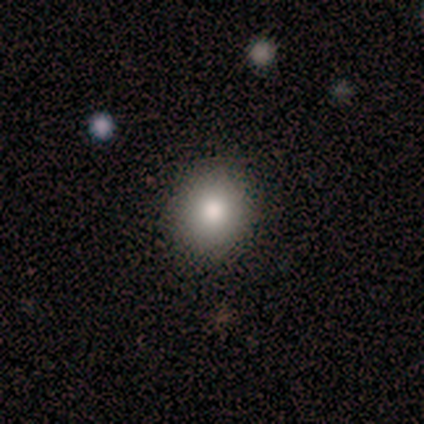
Morphology: type=smooth (100%); roundness=round (60%); merging=none (100%).